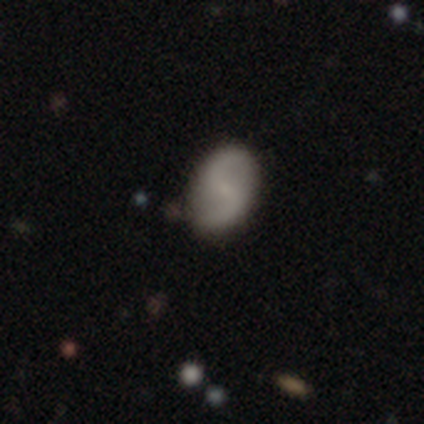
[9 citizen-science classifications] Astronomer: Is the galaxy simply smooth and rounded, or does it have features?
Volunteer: featured or disk — 89%.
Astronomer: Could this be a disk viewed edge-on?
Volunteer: no — 100%.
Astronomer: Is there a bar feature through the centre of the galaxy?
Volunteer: weak — 62%.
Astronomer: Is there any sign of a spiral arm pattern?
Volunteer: yes — 100%.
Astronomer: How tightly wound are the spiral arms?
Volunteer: loose — 88%.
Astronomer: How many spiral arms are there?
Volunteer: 2 — 100%.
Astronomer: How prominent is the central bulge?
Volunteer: small — 88%.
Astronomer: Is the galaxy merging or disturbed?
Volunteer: none — 100%.